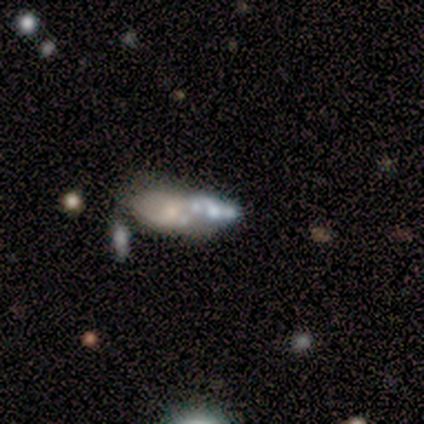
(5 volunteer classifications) Smooth or featured? 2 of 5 (40%, tied with featured or disk) said smooth. How rounded? 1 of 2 (50%, tied with cigar-shaped) said in between. Merging? 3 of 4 (75%) said merger.